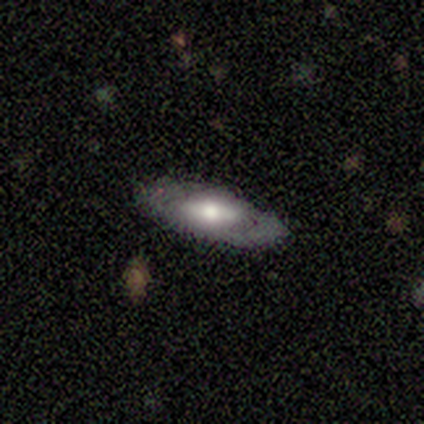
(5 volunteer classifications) smooth_or_featured: featured or disk (p=0.80) [alt: smooth p=0.20]
disk_edge_on: no (p=0.75) [alt: yes p=0.25]
bar: weak (p=0.67) [alt: no p=0.33]
has_spiral_arms: no (p=0.67) [alt: yes p=0.33]
bulge_size: moderate (p=1.00)
merging: none (p=0.80) [alt: minor disturbance p=0.20]